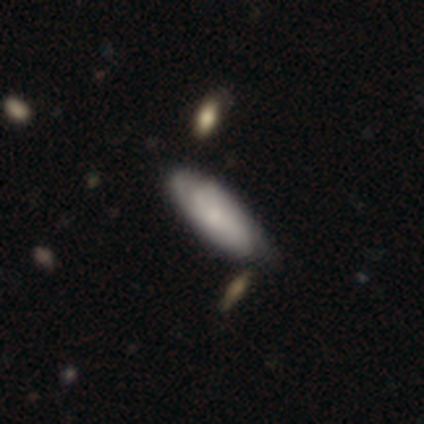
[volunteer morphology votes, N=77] smooth 51%, featured or disk 44%, star or artifact 5%. Down the decision tree: how rounded — in between (64%); merging — none (38%).